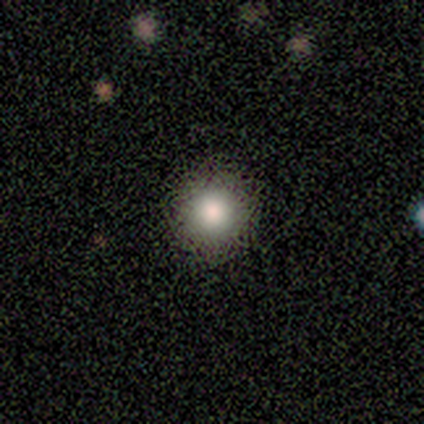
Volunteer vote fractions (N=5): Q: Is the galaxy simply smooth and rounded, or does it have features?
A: smooth — 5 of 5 (100%).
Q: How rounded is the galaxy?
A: round — 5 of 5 (100%).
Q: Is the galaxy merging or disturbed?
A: none — 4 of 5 (80%).